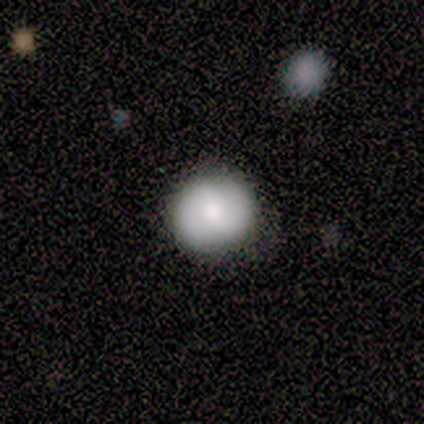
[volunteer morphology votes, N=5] A smooth galaxy with no disk features (80%) that is round (100%).

Vote fractions:
- Smooth or featured? smooth: 80% / featured or disk: 20% / star or artifact: 0%
- How rounded? round: 100% / in between: 0% / cigar-shaped: 0%
- Merging? none: 80% / minor disturbance: 20% / major disturbance: 0% / merger: 0%